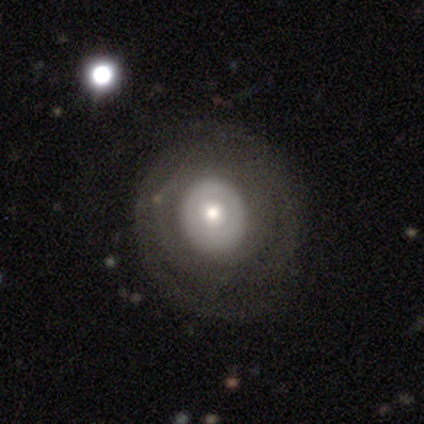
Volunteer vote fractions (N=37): Smooth or featured? 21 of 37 (57%) said featured or disk. Edge-on disk? 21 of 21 (100%) said no. Bar? 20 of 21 (95%) said no. Spiral arms? 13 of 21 (62%) said no. Bulge size? 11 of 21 (52%) said moderate. Merging? 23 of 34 (68%) said none.